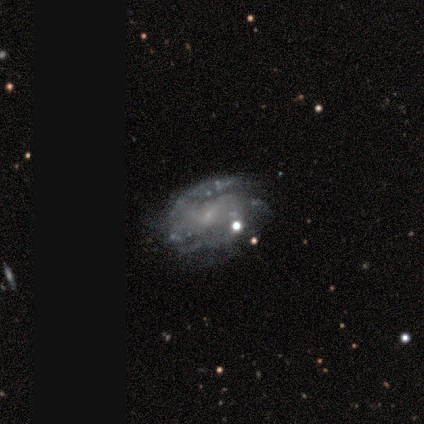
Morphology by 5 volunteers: featured or disk 100%, smooth 0%, star or artifact 0%. Down the decision tree: edge-on disk — no (100%); bar — strong (40%, tied with no); spiral arms — yes (100%); spiral arm count — 2 (60%); spiral winding — tight (40%, tied with medium); bulge size — small (80%); merging — none (100%).